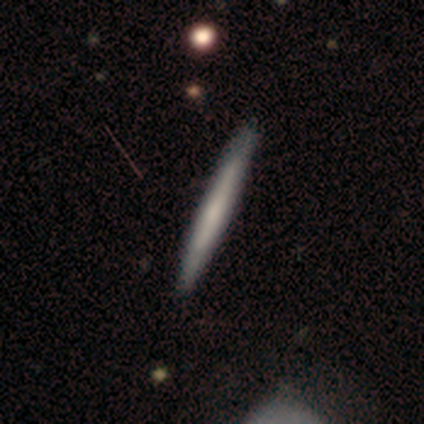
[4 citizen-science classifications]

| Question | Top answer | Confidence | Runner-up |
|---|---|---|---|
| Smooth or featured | smooth | 75% | featured or disk (25%) |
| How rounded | cigar-shaped | 100% | — |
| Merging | none | 50% | tied: minor disturbance (50%) |